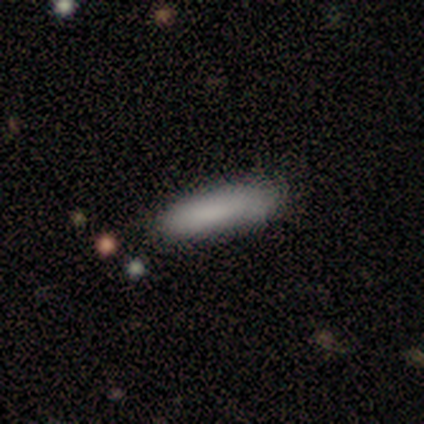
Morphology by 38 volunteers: Q: Smooth or featured?
A: smooth (84%); runner-up: star or artifact (11%)
Q: How rounded?
A: cigar-shaped (69%); runner-up: in between (31%)
Q: Merging?
A: none (88%); runner-up: minor disturbance (6%)